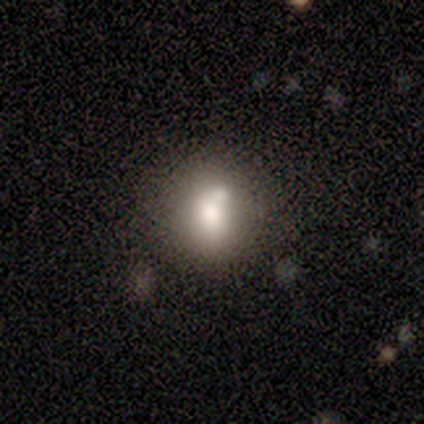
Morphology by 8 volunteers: Smooth or featured? smooth (62%)
How rounded? round (80%)
Merging? none (43%, tied with minor disturbance)